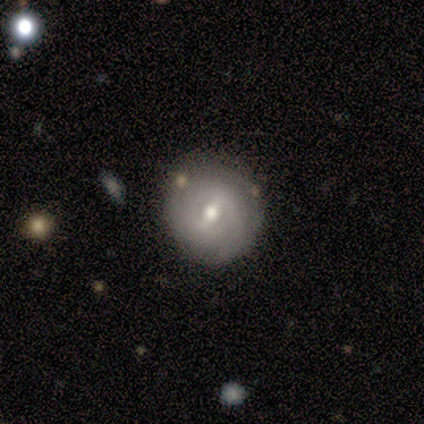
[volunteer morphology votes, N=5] type=smooth (80%); roundness=round (75%); merging=none (100%).